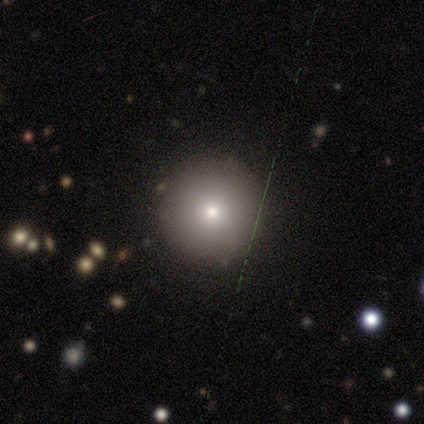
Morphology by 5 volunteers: Smooth or featured: smooth — 60% (featured or disk — 20%)
How rounded: round — 100%
Merging: none — 100%